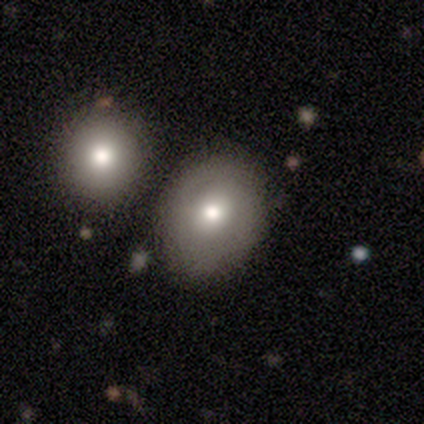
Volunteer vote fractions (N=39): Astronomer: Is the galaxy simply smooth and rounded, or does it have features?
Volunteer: smooth — 54%.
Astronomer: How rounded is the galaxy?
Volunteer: round — 67%.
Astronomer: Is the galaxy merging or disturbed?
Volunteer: none — 47% (runner-up: merger, 31%).